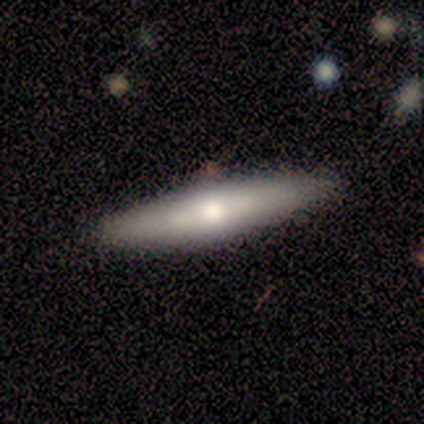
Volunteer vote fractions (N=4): A smooth galaxy with no disk features (75%) that is cigar-shaped (100%).

Vote fractions:
- Smooth or featured? smooth: 75% / featured or disk: 25% / star or artifact: 0%
- How rounded? cigar-shaped: 100% / round: 0% / in between: 0%
- Merging? none: 75% / minor disturbance: 25% / major disturbance: 0% / merger: 0%